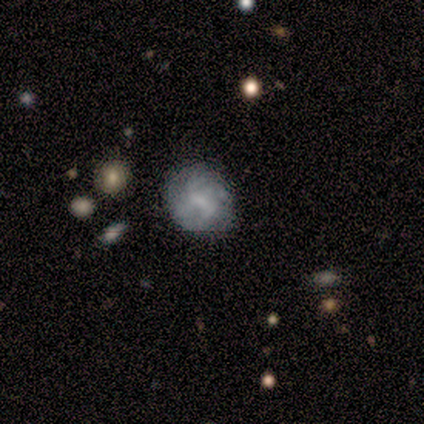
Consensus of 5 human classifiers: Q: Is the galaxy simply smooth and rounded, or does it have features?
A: featured or disk — 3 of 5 (60%).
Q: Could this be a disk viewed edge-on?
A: no — 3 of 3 (100%).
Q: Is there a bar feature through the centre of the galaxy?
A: no — 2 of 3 (67%).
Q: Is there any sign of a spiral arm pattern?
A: no — 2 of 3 (67%).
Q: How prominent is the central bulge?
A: none — 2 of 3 (67%).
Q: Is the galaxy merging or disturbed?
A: none — 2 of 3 (67%).